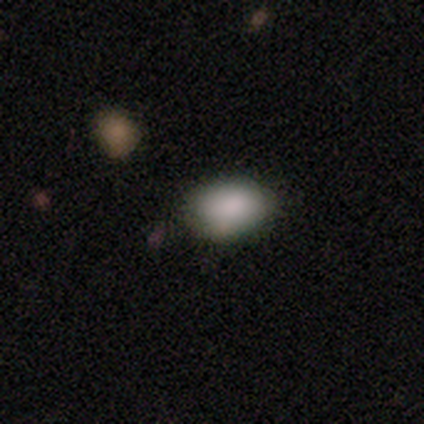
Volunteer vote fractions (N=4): Smooth or featured? smooth (100%)
How rounded? in between (100%)
Merging? none (75%)